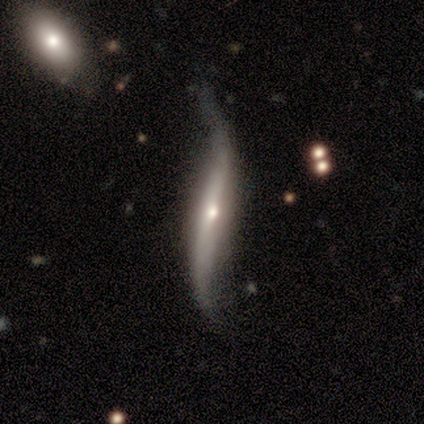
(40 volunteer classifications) A featured or disk galaxy (75%) viewed edge-on (57%) with a rounded central bulge (82%).

Vote fractions:
- Smooth or featured? featured or disk: 75% / smooth: 20% / star or artifact: 5%
- Edge-on disk? yes: 57% / no: 43%
- Edge-on bulge? rounded: 82% / none: 18% / boxy: 0%
- Merging? none: 26% / major disturbance: 18% / minor disturbance: 13% / merger: 5%